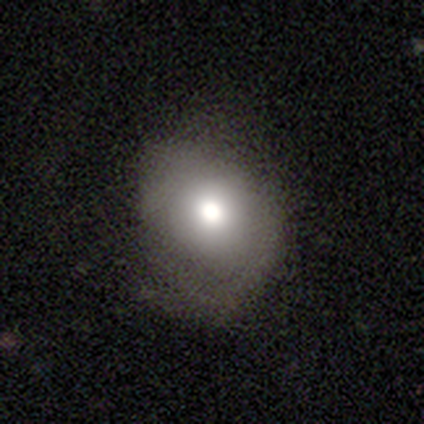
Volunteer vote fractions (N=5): Smooth or featured: smooth — 80% (featured or disk — 20%)
How rounded: round — 75% (in between — 25%)
Merging: none — 60% (minor disturbance — 20%)